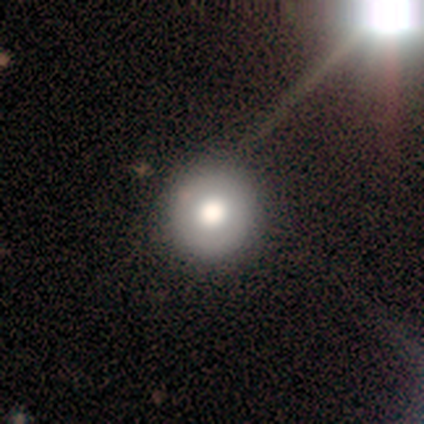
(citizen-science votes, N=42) This is possibly a smooth galaxy (57%). How rounded: clearly round (92%). Merging: clearly none (92%).